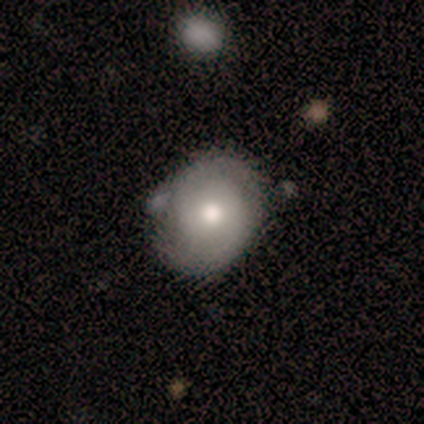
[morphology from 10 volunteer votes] smooth_or_featured: smooth (p=0.60) [alt: featured or disk p=0.40]
how_rounded: round (p=0.50) [tied with: in between p=0.50]
merging: none (p=0.70) [alt: minor disturbance p=0.30]